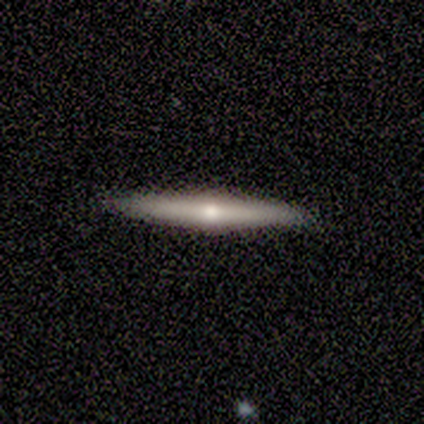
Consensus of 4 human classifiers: Volunteers were most divided on "smooth or featured": featured or disk: 75%, smooth: 25%, star or artifact: 0%. More confident: edge-on disk — yes (100%); edge-on bulge — rounded (100%); merging — none (100%).